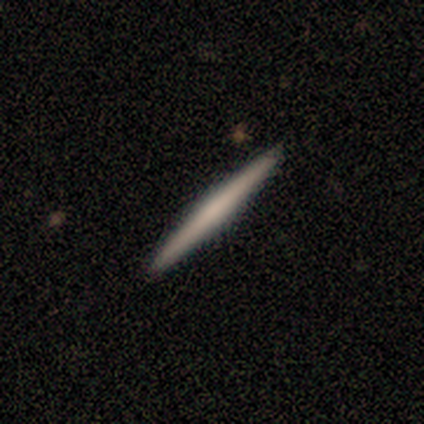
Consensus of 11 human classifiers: Volunteers were most divided on "edge-on bulge": rounded: 56%, boxy: 22%, none: 22%. More confident: edge-on disk — yes (100%); merging — none (100%); smooth or featured — featured or disk (82%).